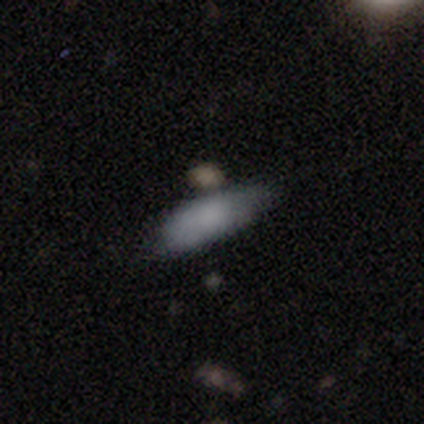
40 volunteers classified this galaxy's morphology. smooth 82%, featured or disk 15%, star or artifact 2%. Down the decision tree: how rounded — in between (94%); merging — none (54%).